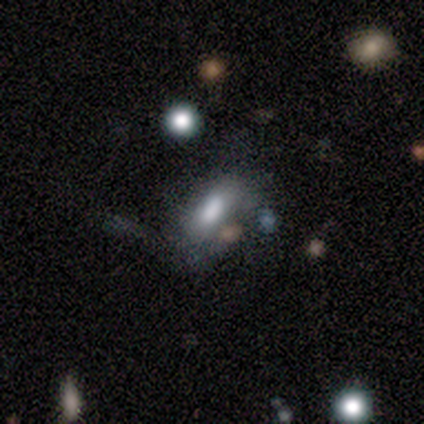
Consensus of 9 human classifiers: Volunteers were most divided on "smooth or featured": smooth: 56%, featured or disk: 44%, star or artifact: 0%. More confident: how rounded — in between (80%); merging — none (67%).